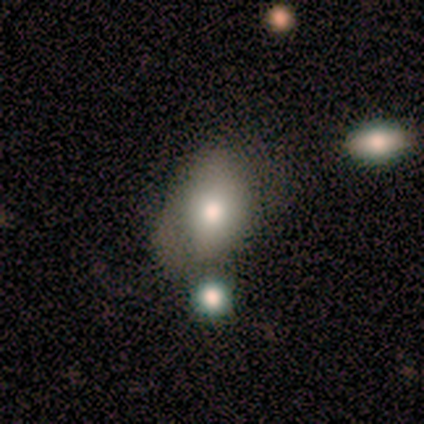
Volunteers were most divided on "merging" (2-way tie): none: 50%, minor disturbance: 50%, major disturbance: 0%, merger: 0%. More confident: smooth or featured — smooth (80%); how rounded — in between (75%).